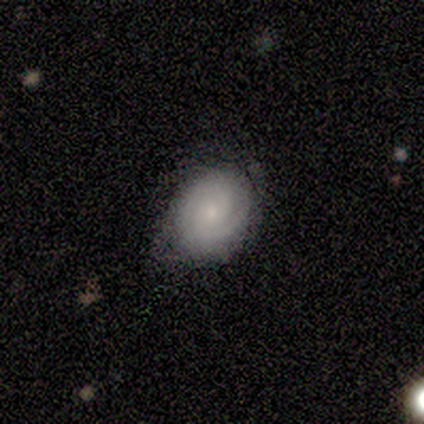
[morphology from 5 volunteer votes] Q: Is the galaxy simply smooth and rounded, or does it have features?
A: smooth — 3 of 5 (60%).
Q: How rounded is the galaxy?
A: round — 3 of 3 (100%).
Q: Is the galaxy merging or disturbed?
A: none — 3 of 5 (60%).